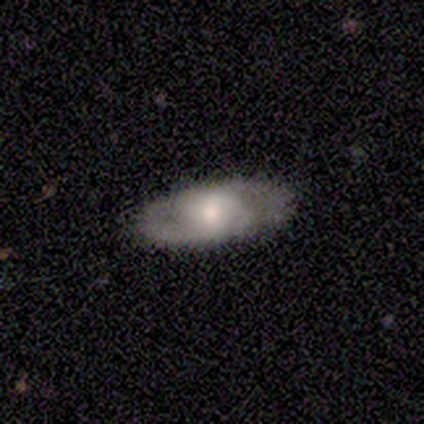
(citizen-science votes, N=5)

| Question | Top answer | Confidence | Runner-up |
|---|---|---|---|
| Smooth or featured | featured or disk | 80% | smooth (20%) |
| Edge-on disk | no | 100% | — |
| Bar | no | 75% | weak (25%) |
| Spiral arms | yes | 50% | tied: no (50%) |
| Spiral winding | medium | 100% | — |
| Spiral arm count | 2 | 50% | tied: can't tell (50%) |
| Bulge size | dominant | 25% | tied: large (25%), moderate (25%), none (25%) |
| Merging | none | 100% | — |